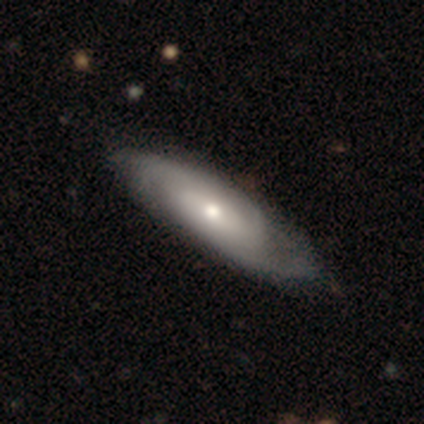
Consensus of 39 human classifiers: This is likely a featured or disk galaxy (74%). It is clearly not viewed edge-on (86%). Bar: likely no (76%). Spiral arm pattern: clearly yes (88%). Spiral arm count: possibly 2 (59%). Spiral winding: marginally tight (41%). Central bulge: possibly moderate (48%). Merging: possibly none (49%).